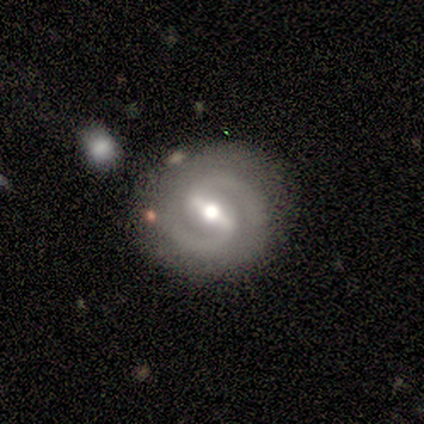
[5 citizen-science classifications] Morphology: type=featured or disk (100%); edge-on=no (100%); bar=strong (60%); spiral arms=yes (100%); winding=tight (60%); arm count=2 (100%); bulge=moderate (100%); merging=none (60%).